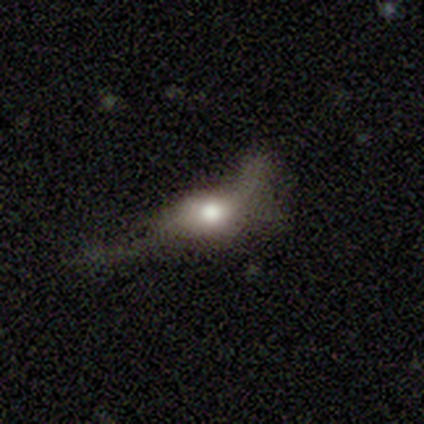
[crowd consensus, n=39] A smooth galaxy with no disk features (54%) that is in between round and cigar-shaped (67%). Merging: major disturbance (57%).